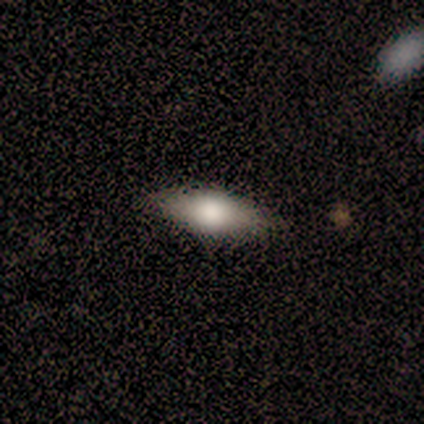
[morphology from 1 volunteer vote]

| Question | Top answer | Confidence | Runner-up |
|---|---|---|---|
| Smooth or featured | featured or disk | 100% | — |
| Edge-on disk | yes | 100% | — |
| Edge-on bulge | rounded | 100% | — |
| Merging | none | 100% | — |